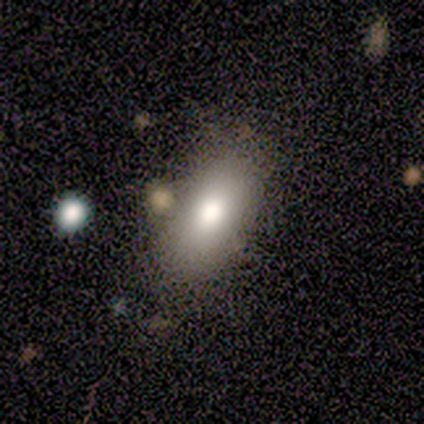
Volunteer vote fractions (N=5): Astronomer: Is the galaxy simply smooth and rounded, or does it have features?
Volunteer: smooth — 80%.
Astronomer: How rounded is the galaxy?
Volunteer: in between — 75%.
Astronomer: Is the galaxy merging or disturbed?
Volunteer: none — 80%.